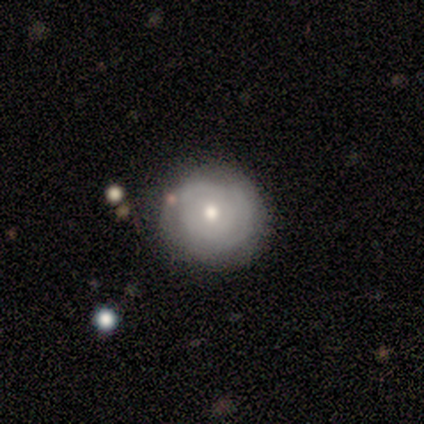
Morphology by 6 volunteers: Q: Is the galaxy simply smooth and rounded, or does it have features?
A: featured or disk — 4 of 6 (67%).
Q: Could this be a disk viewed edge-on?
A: no — 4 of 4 (100%).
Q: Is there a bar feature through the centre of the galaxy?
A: no — 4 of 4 (100%).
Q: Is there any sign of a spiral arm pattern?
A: yes — 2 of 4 (50%, tied with no).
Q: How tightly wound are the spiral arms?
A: tight — 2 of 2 (100%).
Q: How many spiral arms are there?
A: can't tell — 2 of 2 (100%).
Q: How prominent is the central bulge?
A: moderate — 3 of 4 (75%).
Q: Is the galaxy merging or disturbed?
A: none — 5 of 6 (83%).